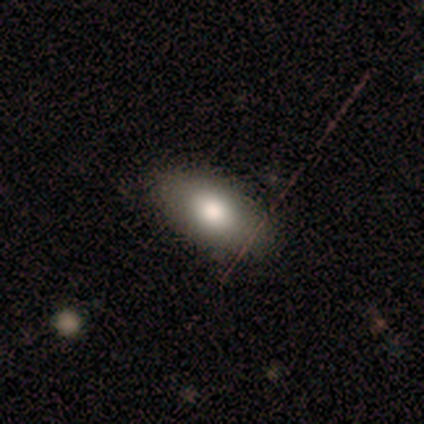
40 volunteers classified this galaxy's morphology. This appears to be a smooth galaxy with no disk features (68%) that is in between round and cigar-shaped (96%). Merging: none (55%).